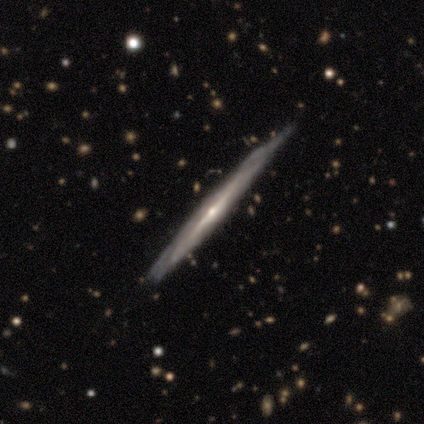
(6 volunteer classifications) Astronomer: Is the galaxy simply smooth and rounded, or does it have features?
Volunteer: featured or disk — 100%.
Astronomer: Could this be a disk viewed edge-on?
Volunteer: yes — 100%.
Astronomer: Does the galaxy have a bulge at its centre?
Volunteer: rounded — 83%.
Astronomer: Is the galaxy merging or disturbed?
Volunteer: none — 83%.